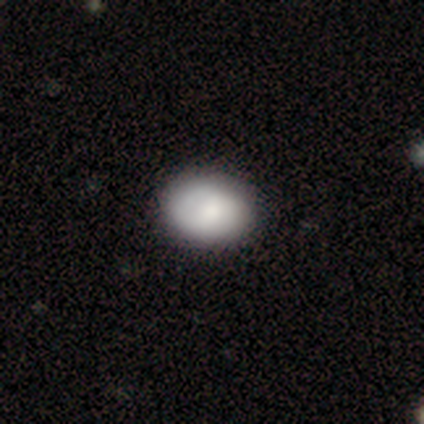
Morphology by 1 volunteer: A smooth galaxy with no disk features (100%) that is in between round and cigar-shaped (100%).

Vote fractions:
- Smooth or featured? smooth: 100% / featured or disk: 0% / star or artifact: 0%
- How rounded? in between: 100% / round: 0% / cigar-shaped: 0%
- Merging? none: 100% / minor disturbance: 0% / major disturbance: 0% / merger: 0%